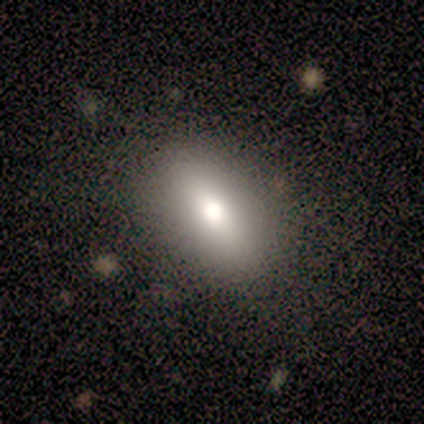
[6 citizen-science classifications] A smooth galaxy with no disk features (100%) that is in between round and cigar-shaped (83%).

Vote fractions:
- Smooth or featured? smooth: 100% / featured or disk: 0% / star or artifact: 0%
- How rounded? in between: 83% / round: 17% / cigar-shaped: 0%
- Merging? none: 67% / minor disturbance: 33% / major disturbance: 0% / merger: 0%